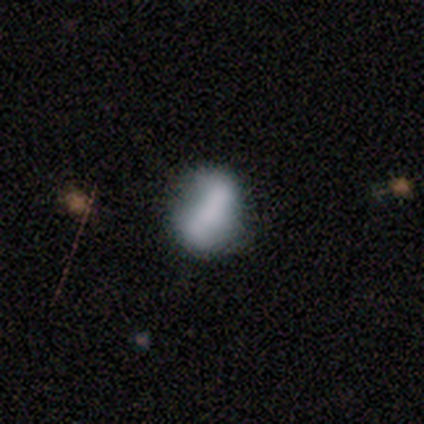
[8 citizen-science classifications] Smooth or featured? smooth (50%, tied with featured or disk)
How rounded? round (50%)
Merging? none (88%)